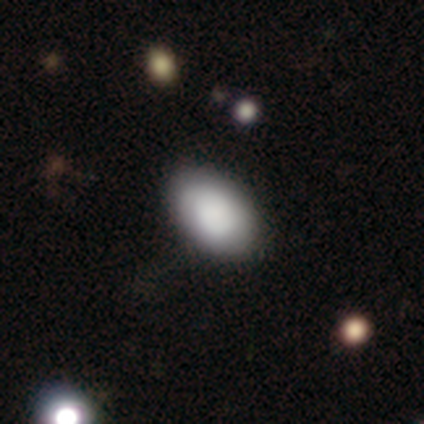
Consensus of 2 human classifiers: This appears to be a smooth galaxy with no disk features (100%) that is in between round and cigar-shaped (100%). Merging: none (100%).